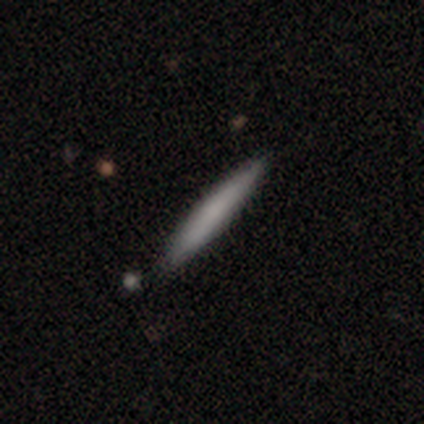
Morphology: type=smooth (80%); roundness=cigar-shaped (100%); merging=none (60%).